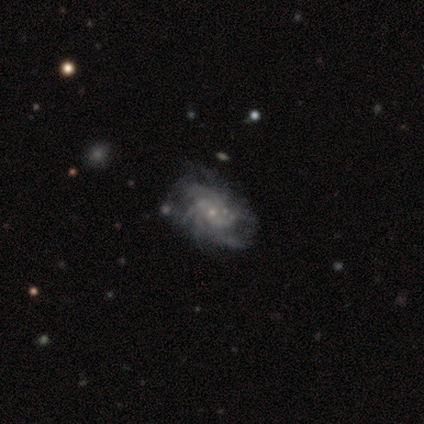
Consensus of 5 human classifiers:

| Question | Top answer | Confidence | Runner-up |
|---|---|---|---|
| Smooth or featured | featured or disk | 100% | — |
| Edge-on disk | no | 100% | — |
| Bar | no | 100% | — |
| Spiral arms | yes | 100% | — |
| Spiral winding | loose | 60% | medium (40%) |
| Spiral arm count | can't tell | 60% | more than 4 (40%) |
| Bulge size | small | 80% | none (20%) |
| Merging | none | 40% | minor disturbance (20%) |